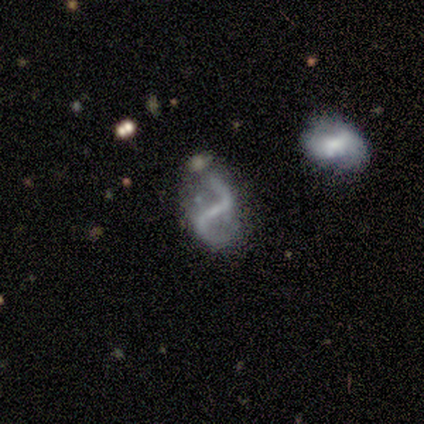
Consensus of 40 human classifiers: Morphology: type=featured or disk (90%); edge-on=no (100%); bar=strong (75%); spiral arms=yes (92%); winding=loose (67%); arm count=2 (100%); bulge=none (53%); merging=none (52%).